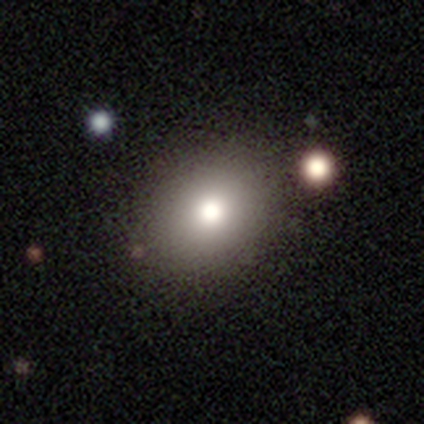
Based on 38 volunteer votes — Smooth or featured: smooth — 87% (star or artifact — 8%)
How rounded: round — 52% (in between — 48%)
Merging: none — 86% (minor disturbance — 11%)